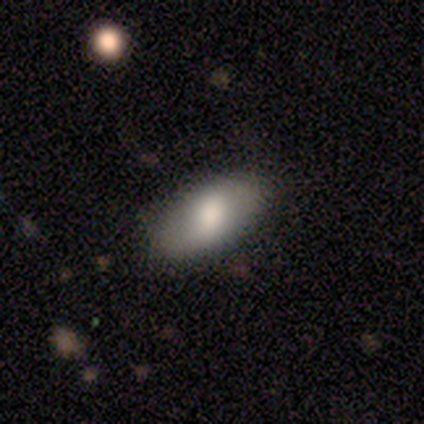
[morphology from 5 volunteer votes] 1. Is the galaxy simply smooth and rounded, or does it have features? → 100% smooth, 0% featured or disk, 0% star or artifact.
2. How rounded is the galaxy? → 100% in between, 0% round, 0% cigar-shaped.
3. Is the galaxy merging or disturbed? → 80% none, 20% minor disturbance, 0% major disturbance, 0% merger.